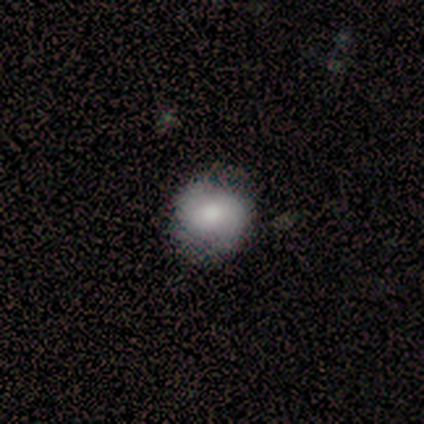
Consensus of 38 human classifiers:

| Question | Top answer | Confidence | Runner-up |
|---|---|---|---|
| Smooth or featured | smooth | 71% | featured or disk (26%) |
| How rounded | round | 78% | in between (22%) |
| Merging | none | 73% | minor disturbance (22%) |